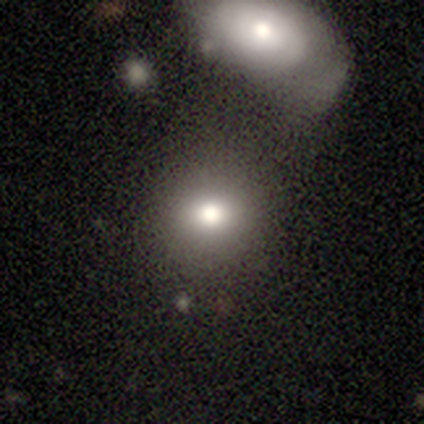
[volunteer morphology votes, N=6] Overall: smooth (67%; star or artifact 33%). How rounded: round (100%). Merging: none (50%, tied with merger).